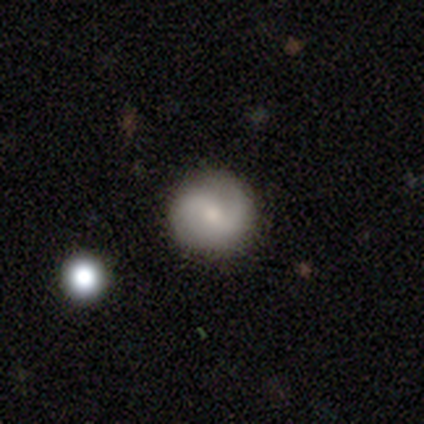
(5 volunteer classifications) Smooth or featured? featured or disk (60%)
Edge-on disk? no (100%)
Bar? weak (100%)
Spiral arms? yes (100%)
Spiral winding? loose (67%)
Spiral arm count? 2 (100%)
Bulge size? moderate (67%)
Merging? none (80%)